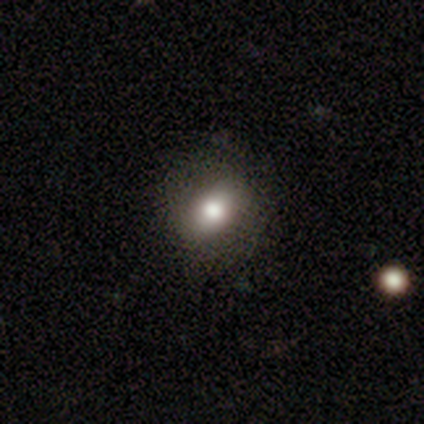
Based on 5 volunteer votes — smooth-or-featured: featured or disk: 60% | smooth: 40% | star or artifact: 0%
  disk-edge-on: no: 100% | yes: 0%
    bar: no: 100% | strong: 0% | weak: 0%
    has-spiral-arms: no: 100% | yes: 0%
    bulge-size: moderate: 67% | dominant: 33% | large: 0% | small: 0% | none: 0%
  merging: none: 100% | minor disturbance: 0% | major disturbance: 0% | merger: 0%